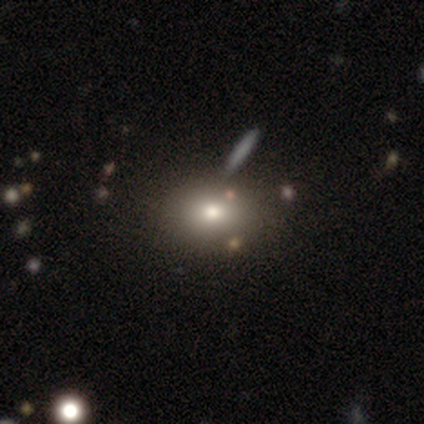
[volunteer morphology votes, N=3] Overall: featured or disk (67%; smooth 33%). Edge-on disk: no (100%). Bar: no (100%). Spiral arms: no (100%). Bulge size: moderate (100%). Merging: none (67%; minor disturbance 33%).